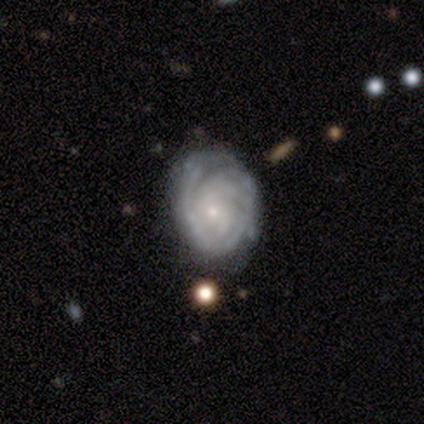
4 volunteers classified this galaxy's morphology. Smooth or featured?
  - featured or disk: 100% *
  - smooth: 0%
  - star or artifact: 0%
Edge-on disk?
  - no: 100% *
  - yes: 0%
Bar?
  - no: 100% *
  - strong: 0%
  - weak: 0%
Spiral arms?
  - yes: 100% *
  - no: 0%
Spiral winding?
  - tight: 75% *
  - medium: 25%
  - loose: 0%
Spiral arm count?
  - can't tell: 50% *
  - 3: 25%
  - 4: 25%
  - 1: 0%
  - 2: 0%
  - more than 4: 0%
Bulge size?
  - small: 100% *
  - dominant: 0%
  - large: 0%
  - moderate: 0%
  - none: 0%
Merging?
  - none: 50% *
  - minor disturbance: 25%
  - major disturbance: 25%
  - merger: 0%